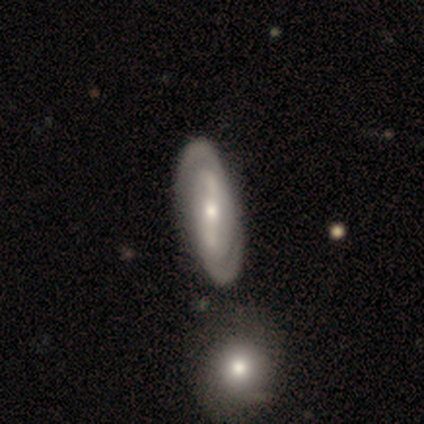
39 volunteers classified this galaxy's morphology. A featured or disk galaxy (79%) with a strong bar (58%), 2 (86%) tight (46%) spiral arms (90%) and a moderate central bulge (74%). Merging: none (61%).